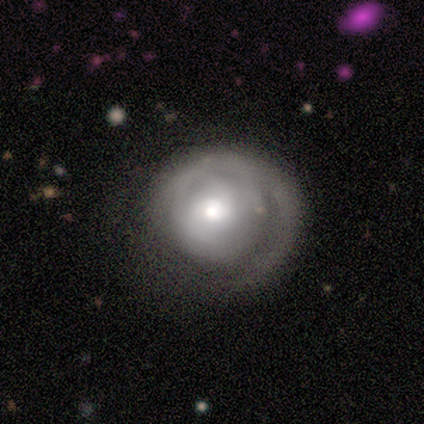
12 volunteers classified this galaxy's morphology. Smooth or featured?
  - featured or disk: 75% *
  - smooth: 25%
  - star or artifact: 0%
Edge-on disk?
  - no: 100% *
  - yes: 0%
Bar?
  - no: 89% *
  - weak: 11%
  - strong: 0%
Spiral arms?
  - yes: 78% *
  - no: 22%
Spiral winding?
  - tight: 71% *
  - loose: 29%
  - medium: 0%
Spiral arm count?
  - can't tell: 57% *
  - 1: 29%
  - 3: 14%
  - 2: 0%
  - 4: 0%
  - more than 4: 0%
Bulge size?
  - moderate: 44% *
  - dominant: 33%
  - large: 11%
  - small: 11%
  - none: 0%
Merging?
  - none: 42% * (tied)
  - major disturbance: 42% * (tied)
  - minor disturbance: 8%
  - merger: 8%